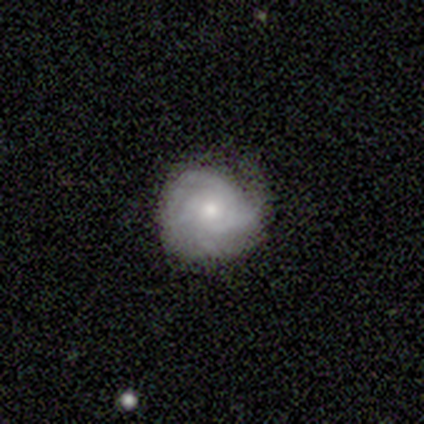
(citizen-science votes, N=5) Morphology: type=featured or disk (60%); edge-on=no (100%); bar=no (67%); spiral arms=yes (100%); winding=tight (100%); arm count=3 (67%); bulge=small (67%); merging=none (80%).